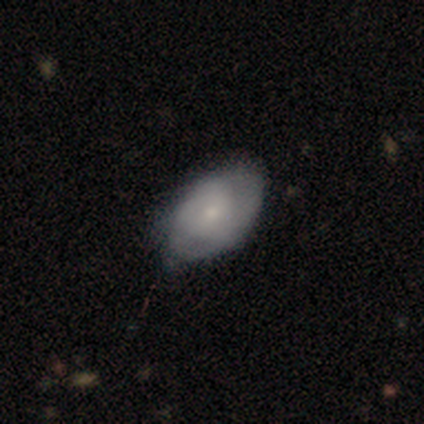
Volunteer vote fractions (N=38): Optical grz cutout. It shows a featured or disk galaxy (53%) with no bar (90%), tight (79%) spiral arms (70%) and a small central bulge (60%). Merging: none (53%).